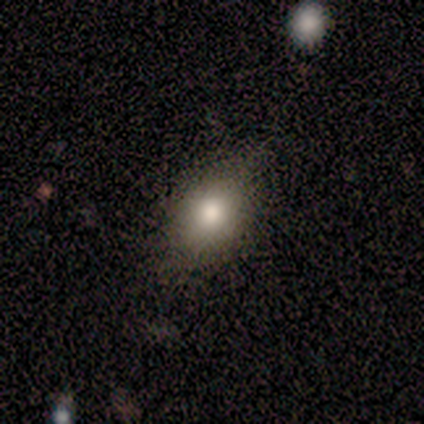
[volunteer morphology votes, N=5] A smooth galaxy with no disk features (60%) that is in between round and cigar-shaped (67%).

Vote fractions:
- Smooth or featured? smooth: 60% / featured or disk: 40% / star or artifact: 0%
- How rounded? in between: 67% / round: 33% / cigar-shaped: 0%
- Merging? none: 80% / major disturbance: 20% / minor disturbance: 0% / merger: 0%